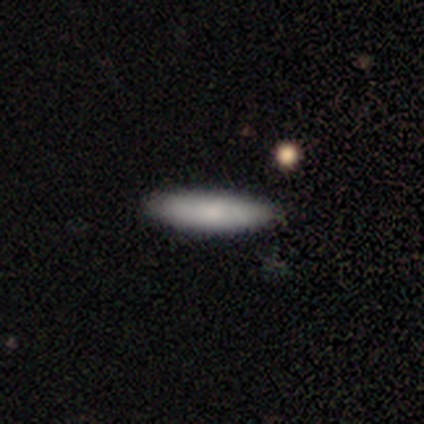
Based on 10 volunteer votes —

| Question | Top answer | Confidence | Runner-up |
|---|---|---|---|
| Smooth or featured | smooth | 80% | featured or disk (10%) |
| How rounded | cigar-shaped | 75% | in between (25%) |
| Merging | none | 100% | — |